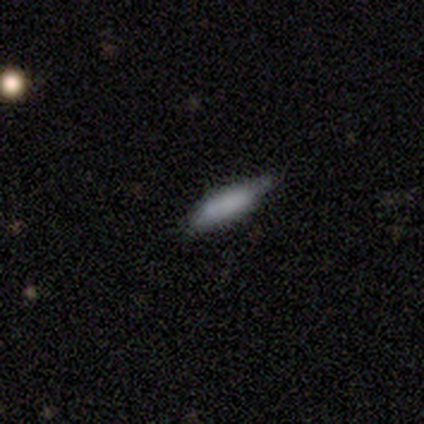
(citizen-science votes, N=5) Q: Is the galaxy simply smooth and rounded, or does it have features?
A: smooth — 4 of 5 (80%).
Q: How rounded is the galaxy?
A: cigar-shaped — 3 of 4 (75%).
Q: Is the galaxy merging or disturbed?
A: none — 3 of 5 (60%).